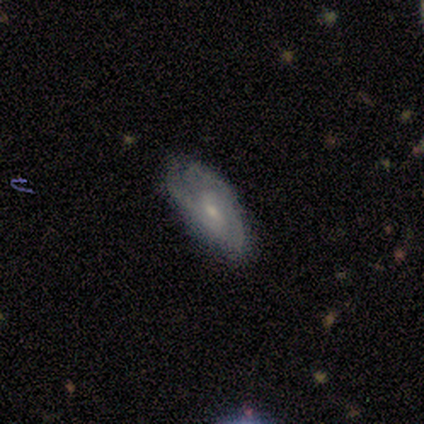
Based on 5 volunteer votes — Smooth or featured?
  - featured or disk: 80% *
  - smooth: 20%
  - star or artifact: 0%
Edge-on disk?
  - no: 100% *
  - yes: 0%
Bar?
  - weak: 50% * (tied)
  - no: 50% * (tied)
  - strong: 0%
Spiral arms?
  - yes: 100% *
  - no: 0%
Spiral winding?
  - medium: 75% *
  - tight: 25%
  - loose: 0%
Spiral arm count?
  - 3: 50% * (tied)
  - can't tell: 50% * (tied)
  - 1: 0%
  - 2: 0%
  - 4: 0%
  - more than 4: 0%
Bulge size?
  - small: 100% *
  - dominant: 0%
  - large: 0%
  - moderate: 0%
  - none: 0%
Merging?
  - none: 100% *
  - minor disturbance: 0%
  - major disturbance: 0%
  - merger: 0%